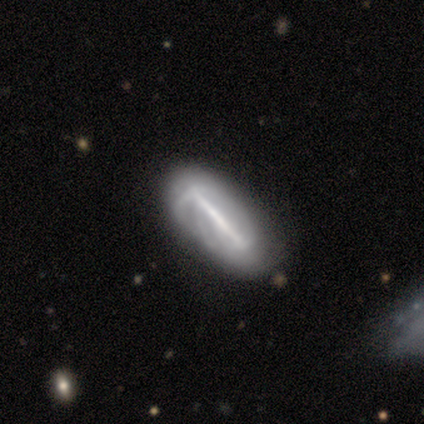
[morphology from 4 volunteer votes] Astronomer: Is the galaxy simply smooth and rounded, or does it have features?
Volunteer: featured or disk — 75%.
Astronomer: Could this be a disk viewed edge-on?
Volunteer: no — 100%.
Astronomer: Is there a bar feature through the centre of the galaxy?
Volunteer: strong — 100%.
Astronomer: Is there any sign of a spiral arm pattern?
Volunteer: no — 100%.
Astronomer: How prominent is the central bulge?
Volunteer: none — 100%.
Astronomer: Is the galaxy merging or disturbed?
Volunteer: none — 33%, tied with minor disturbance and major disturbance at 33%.